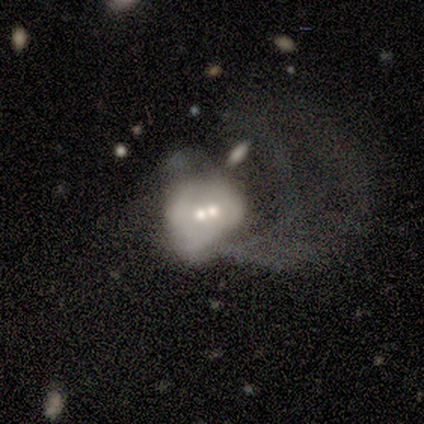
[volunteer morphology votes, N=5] Overall: smooth (60%; featured or disk 40%). How rounded: round (67%; in between 33%). Merging: merger (60%; none 20%).